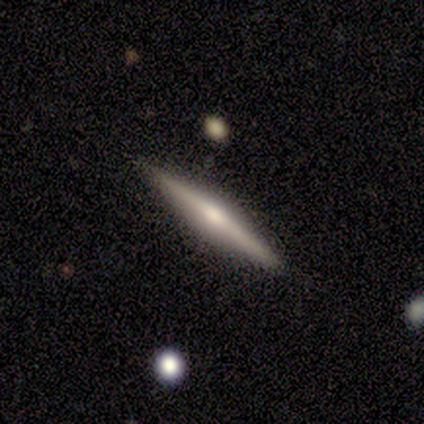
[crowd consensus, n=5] smooth_or_featured: featured or disk (p=0.60) [alt: smooth p=0.20]
disk_edge_on: yes (p=1.00)
edge_on_bulge: rounded (p=0.67) [alt: none p=0.33]
merging: none (p=1.00)